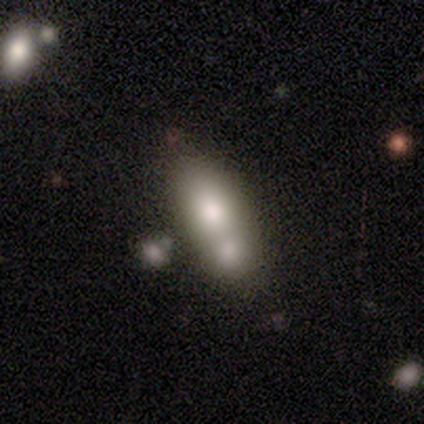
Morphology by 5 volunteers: Smooth or featured: smooth — 60% (featured or disk — 40%)
How rounded: in between — 67% (cigar-shaped — 33%)
Merging: merger — 80% (none — 20%)